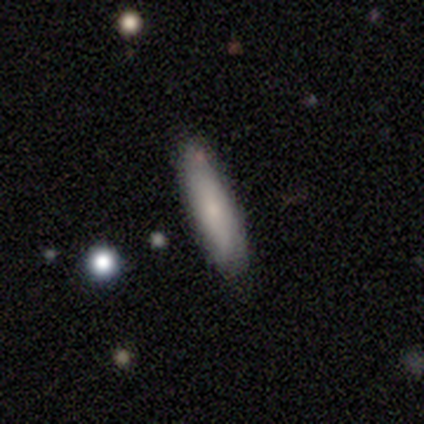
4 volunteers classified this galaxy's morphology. Smooth or featured? smooth (100%)
How rounded? cigar-shaped (100%)
Merging? none (75%)